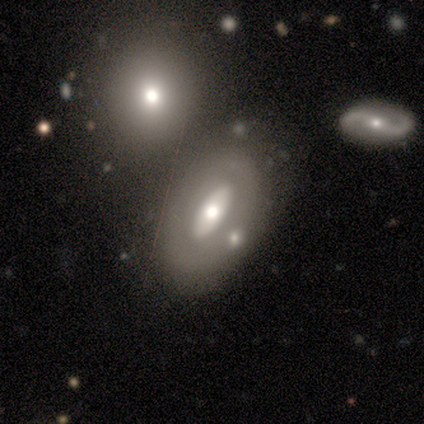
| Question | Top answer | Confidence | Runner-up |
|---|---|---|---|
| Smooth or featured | featured or disk | 60% | smooth (35%) |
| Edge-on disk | no | 95% | yes (5%) |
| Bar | no | 70% | strong (17%) |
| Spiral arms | no | 90% | yes (10%) |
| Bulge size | moderate | 66% | large (21%) |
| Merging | none | 54% | merger (24%) |